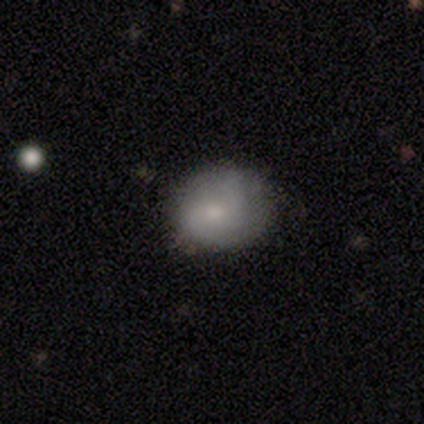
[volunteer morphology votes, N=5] Volunteers were most divided on "spiral arm count" (2-way tie): 2: 50%, 3: 50%, 1: 0%, 4: 0%, more than 4: 0%, can't tell: 0%; "merging" (2-way tie): none: 40%, minor disturbance: 40%, major disturbance: 20%, merger: 0%. More confident: edge-on disk — no (100%); spiral winding — medium (100%); bar — no (67%); spiral arms — yes (67%); bulge size — small (67%); smooth or featured — featured or disk (60%).